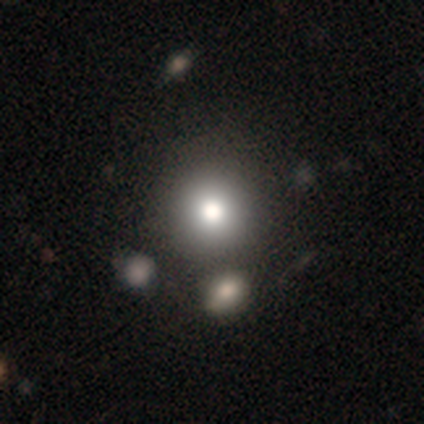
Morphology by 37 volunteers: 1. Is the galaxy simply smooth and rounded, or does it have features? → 84% smooth, 14% featured or disk, 3% star or artifact.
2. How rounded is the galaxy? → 90% round, 10% in between, 0% cigar-shaped.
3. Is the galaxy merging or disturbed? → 72% none, 11% merger, 0% minor disturbance, 0% major disturbance.